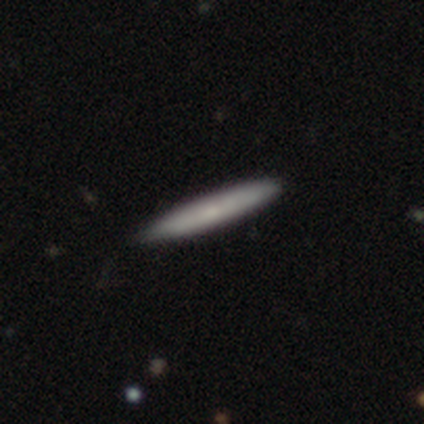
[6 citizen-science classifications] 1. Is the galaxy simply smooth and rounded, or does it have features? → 83% smooth, 17% featured or disk, 0% star or artifact.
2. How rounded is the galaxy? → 100% cigar-shaped, 0% round, 0% in between.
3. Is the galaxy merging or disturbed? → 83% none, 17% minor disturbance, 0% major disturbance, 0% merger.